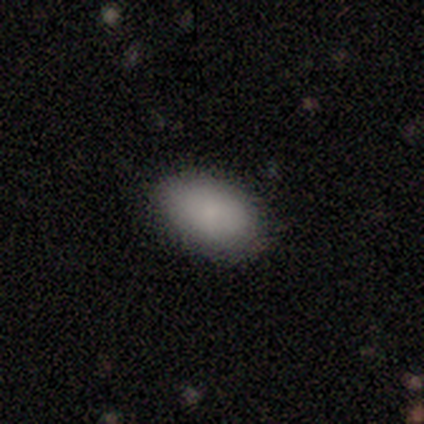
Morphology: type=smooth (100%); roundness=in between (60%); merging=none (100%).